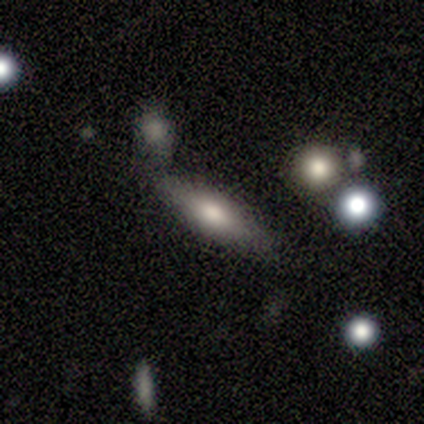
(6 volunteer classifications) Volunteers were most divided on "smooth or featured": smooth: 50%, featured or disk: 33%, star or artifact: 17%. More confident: merging — none (100%); how rounded — in between (67%).